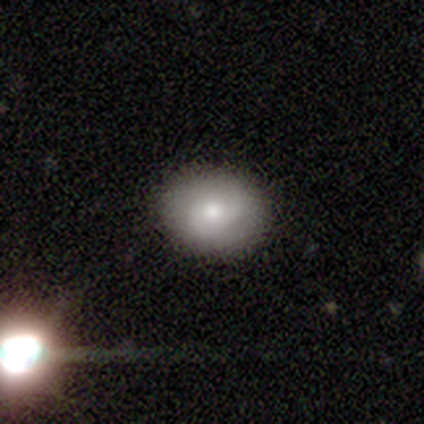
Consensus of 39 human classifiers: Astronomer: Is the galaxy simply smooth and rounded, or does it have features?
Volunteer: smooth — 54% (runner-up: featured or disk, 38%).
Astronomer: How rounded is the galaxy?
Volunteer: round — 62% (runner-up: in between, 38%).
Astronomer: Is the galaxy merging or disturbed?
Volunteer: none — 89%.